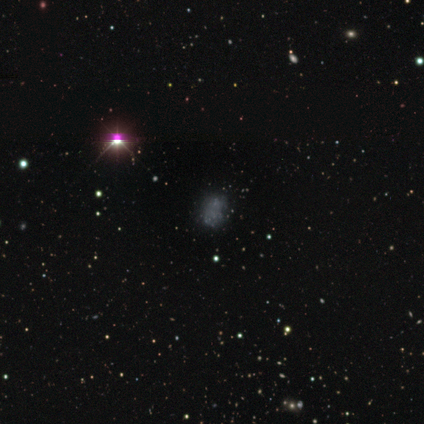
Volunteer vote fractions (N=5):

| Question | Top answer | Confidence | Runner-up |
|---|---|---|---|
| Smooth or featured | smooth | 40% | tied: star or artifact (40%) |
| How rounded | in between | 100% | — |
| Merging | none | 67% | major disturbance (33%) |